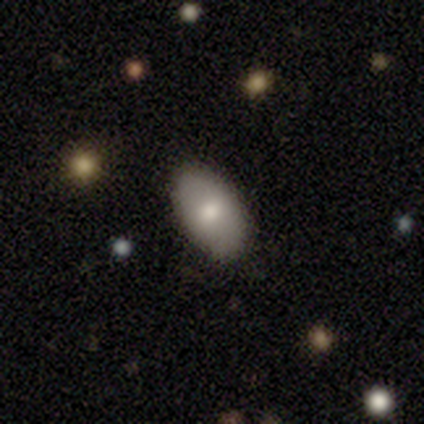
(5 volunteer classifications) A smooth galaxy with no disk features (60%) that is in between round and cigar-shaped (100%).

Vote fractions:
- Smooth or featured? smooth: 60% / star or artifact: 40% / featured or disk: 0%
- How rounded? in between: 100% / round: 0% / cigar-shaped: 0%
- Merging? none: 67% / minor disturbance: 33% / major disturbance: 0% / merger: 0%